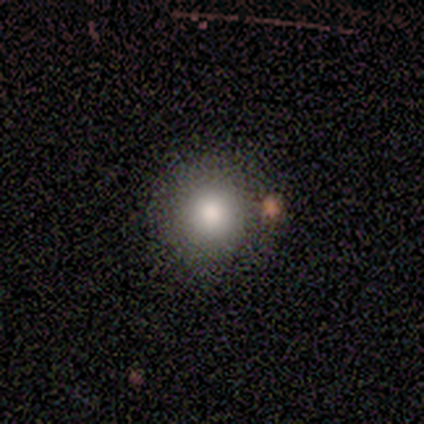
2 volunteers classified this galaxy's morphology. This is possibly a smooth galaxy (50%, tied with star or artifact). How rounded: clearly round (100%). Merging: clearly merger (100%).